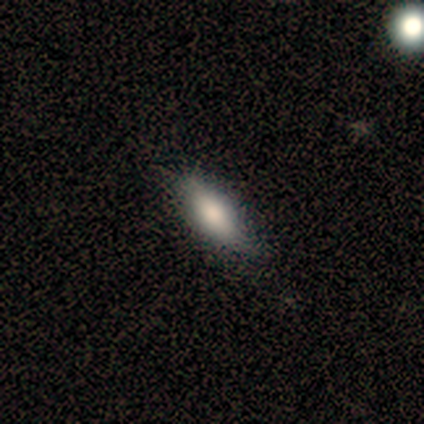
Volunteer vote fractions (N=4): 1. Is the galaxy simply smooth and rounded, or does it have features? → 75% smooth, 25% featured or disk, 0% star or artifact.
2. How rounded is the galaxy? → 67% in between, 33% cigar-shaped, 0% round.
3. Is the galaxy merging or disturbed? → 75% none, 25% minor disturbance, 0% major disturbance, 0% merger.